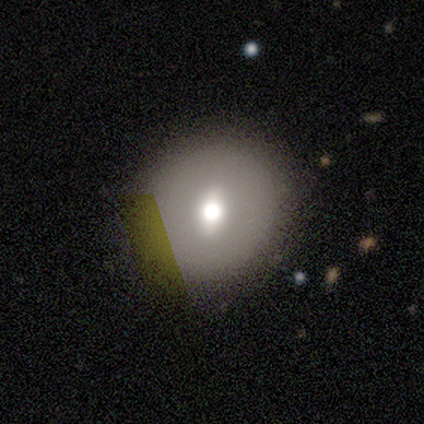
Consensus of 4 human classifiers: smooth_or_featured: smooth (p=0.50) [alt: featured or disk p=0.25]
how_rounded: round (p=1.00)
merging: none (p=1.00)